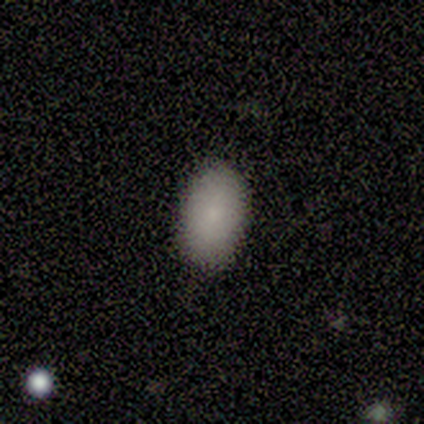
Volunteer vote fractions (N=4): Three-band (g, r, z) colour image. It shows a smooth galaxy with no disk features (100%) that is in between round and cigar-shaped (75%). Merging: none (100%).